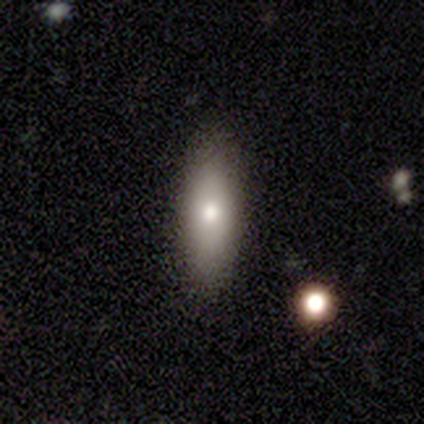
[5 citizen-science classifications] Smooth or featured? featured or disk (60%)
Edge-on disk? yes (67%)
Edge-on bulge? rounded (100%)
Merging? none (100%)